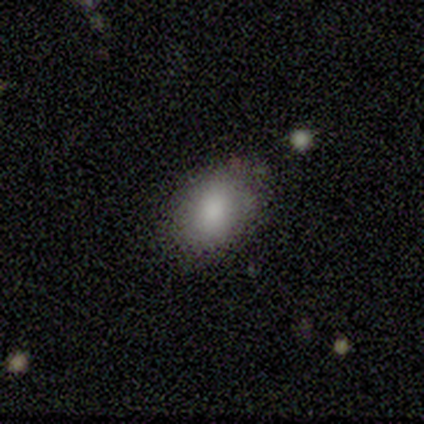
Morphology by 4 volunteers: type=smooth (75%); roundness=in between (67%); merging=none (50%).